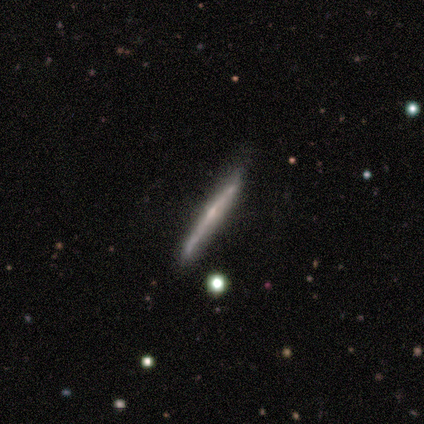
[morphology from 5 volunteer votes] Smooth or featured: featured or disk — 60% (smooth — 40%)
Edge-on disk: yes — 100%
Edge-on bulge: rounded — 100%
Merging: none — 80% (minor disturbance — 20%)